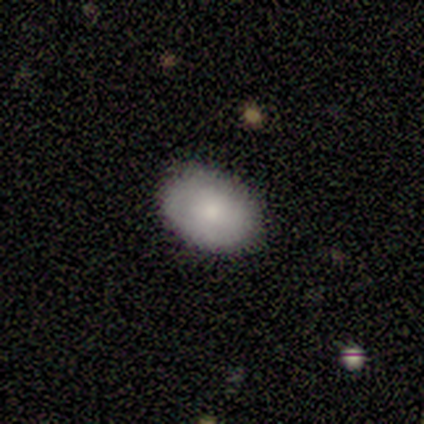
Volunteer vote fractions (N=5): Smooth or featured?
  - smooth: 100% *
  - featured or disk: 0%
  - star or artifact: 0%
How rounded?
  - in between: 60% *
  - round: 40%
  - cigar-shaped: 0%
Merging?
  - none: 100% *
  - minor disturbance: 0%
  - major disturbance: 0%
  - merger: 0%